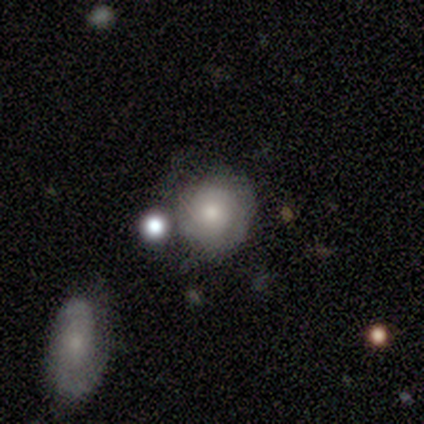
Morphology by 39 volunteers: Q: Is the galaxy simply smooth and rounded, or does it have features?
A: smooth — 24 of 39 (62%).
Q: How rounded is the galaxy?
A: round — 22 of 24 (92%).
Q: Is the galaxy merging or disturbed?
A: none — 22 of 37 (59%).